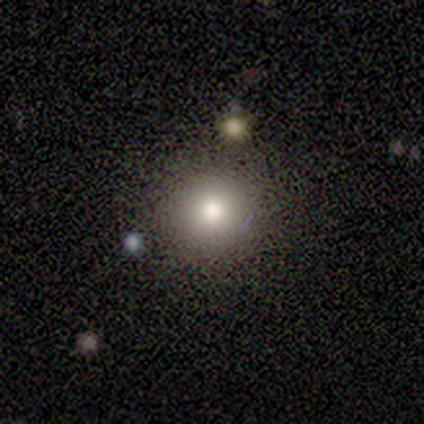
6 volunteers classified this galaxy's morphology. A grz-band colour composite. It shows a smooth galaxy with no disk features (67%) that is round (75%). Merging: none (75%).